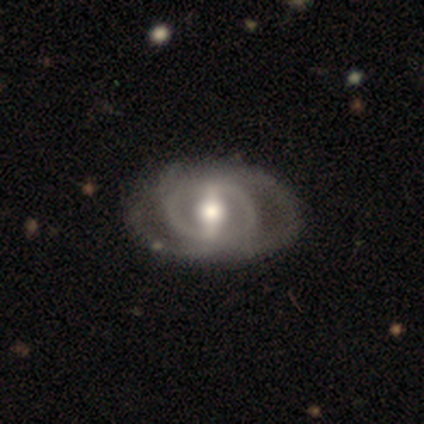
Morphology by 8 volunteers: type=featured or disk (100%); edge-on=no (100%); bar=strong (88%); spiral arms=yes (88%); winding=tight (71%); arm count=2 (57%); bulge=moderate (50%); merging=none (88%).